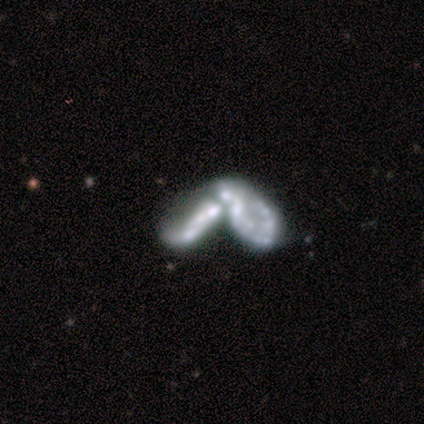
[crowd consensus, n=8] smooth-or-featured: featured or disk: 50% | smooth: 38% | star or artifact: 12%
  disk-edge-on: no: 100% | yes: 0%
    bar: no: 100% | strong: 0% | weak: 0%
    has-spiral-arms: no: 100% | yes: 0%
    bulge-size: none: 50% | large: 25% | small: 25% | dominant: 0% | moderate: 0%
  merging: merger: 71% | none: 14% | major disturbance: 14% | minor disturbance: 0%